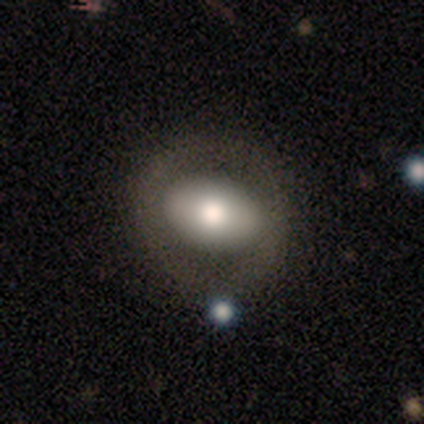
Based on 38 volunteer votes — smooth-or-featured: smooth: 63% | featured or disk: 32% | star or artifact: 5%
  how-rounded: in between: 88% | round: 12% | cigar-shaped: 0%
  merging: none: 81% | minor disturbance: 8% | major disturbance: 8% | merger: 3%